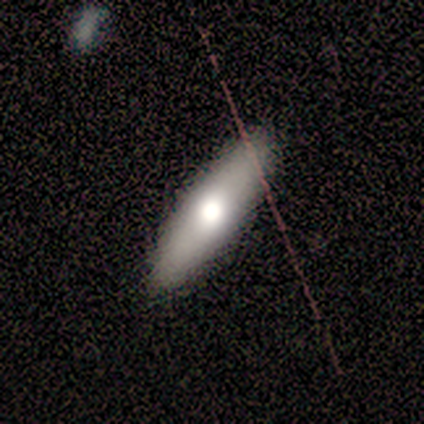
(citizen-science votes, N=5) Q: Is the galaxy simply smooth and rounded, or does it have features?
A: smooth — 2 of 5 (40%, tied with star or artifact).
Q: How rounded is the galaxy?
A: in between — 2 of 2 (100%).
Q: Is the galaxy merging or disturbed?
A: none — 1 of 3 (33%, tied with minor disturbance and major disturbance).